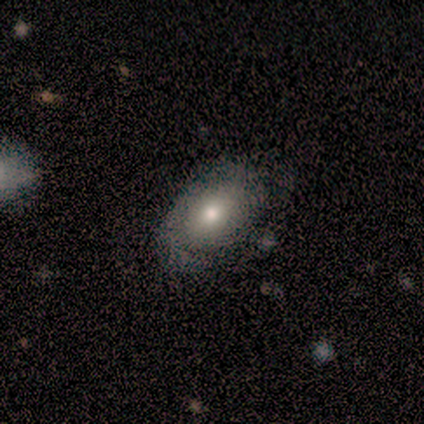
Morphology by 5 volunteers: smooth-or-featured: smooth: 40% (tied) | featured or disk: 40% (tied) | star or artifact: 20%
  how-rounded: in between: 100% | round: 0% | cigar-shaped: 0%
  merging: none: 75% | minor disturbance: 25% | major disturbance: 0% | merger: 0%